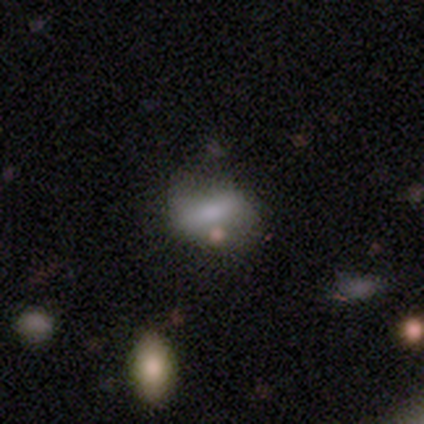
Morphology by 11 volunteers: Smooth or featured? 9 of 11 (82%) said smooth. How rounded? 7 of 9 (78%) said in between. Merging? 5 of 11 (45%) said none.